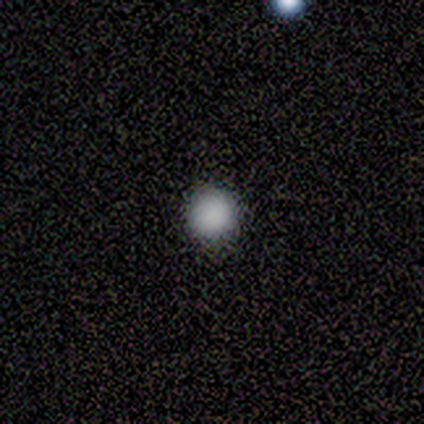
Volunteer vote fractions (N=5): Morphology: type=smooth (100%); roundness=round (100%); merging=none (100%).